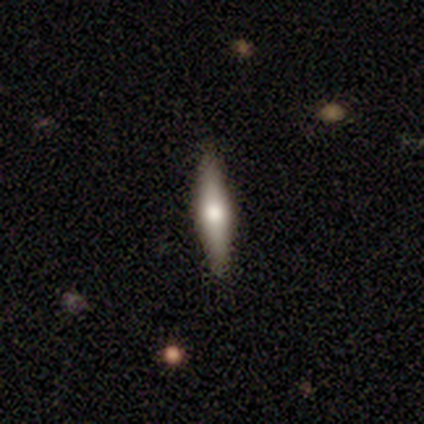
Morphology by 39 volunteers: Smooth or featured?
  - smooth: 51% *
  - featured or disk: 46%
  - star or artifact: 3%
How rounded?
  - cigar-shaped: 95% *
  - in between: 5%
  - round: 0%
Merging?
  - none: 92% *
  - minor disturbance: 8%
  - major disturbance: 0%
  - merger: 0%